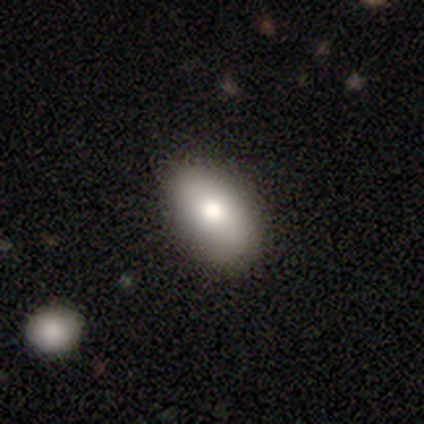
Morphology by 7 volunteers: type=smooth (71%); roundness=in between (60%); merging=none (86%).